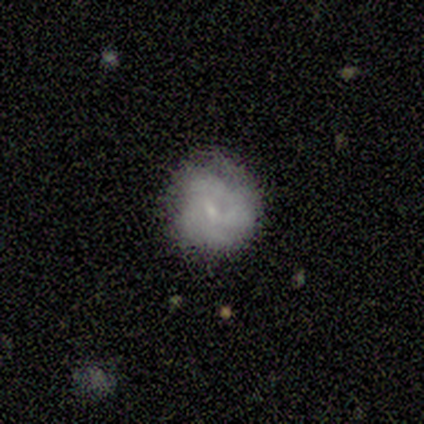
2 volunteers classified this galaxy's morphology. Smooth or featured: smooth — 50% (tied with featured or disk — 50%)
How rounded: round — 100%
Merging: none — 50% (tied with major disturbance — 50%)